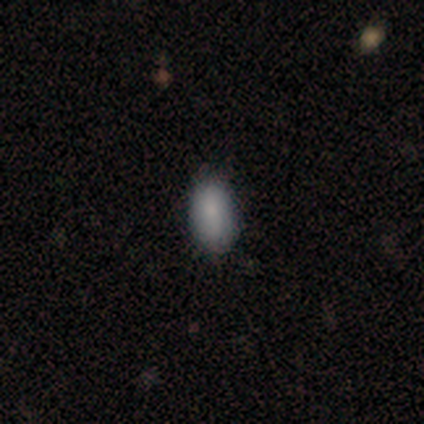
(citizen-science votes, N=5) Morphology: type=smooth (40%, tied with featured or disk); roundness=in between (100%); merging=none (50%, tied with minor disturbance).